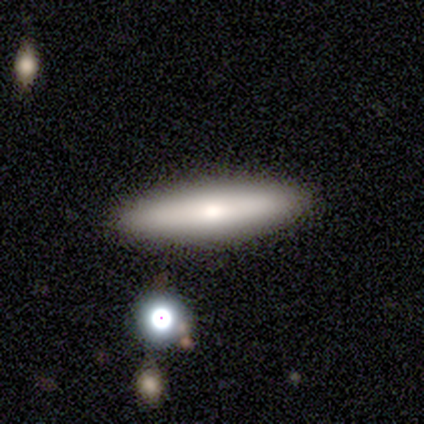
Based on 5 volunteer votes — This appears to be a smooth galaxy with no disk features (60%) that is cigar-shaped (67%). Merging: none (100%).